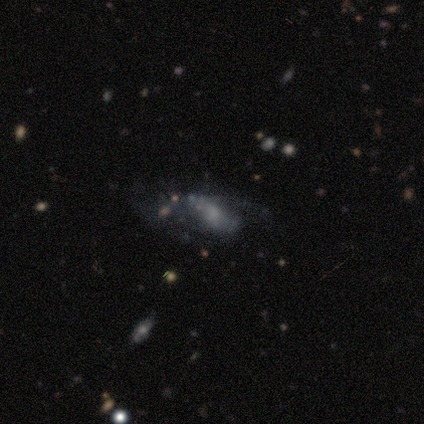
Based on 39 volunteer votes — Overall: featured or disk (64%). Edge-on disk: no (100%). Bar: no (60%; weak 36%). Spiral arms: no (56%; yes 44%). Bulge size: small (48%; none 28%). Merging: none (39%; major disturbance 35%).